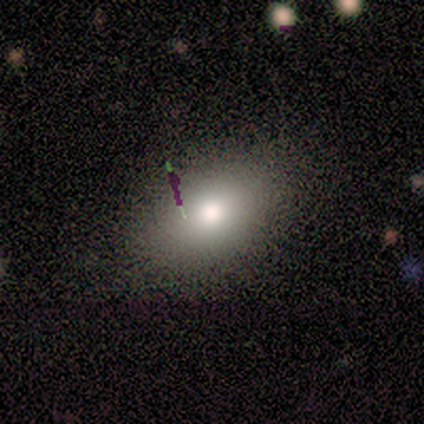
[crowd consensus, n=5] Smooth or featured: smooth — 100%
How rounded: in between — 100%
Merging: none — 100%